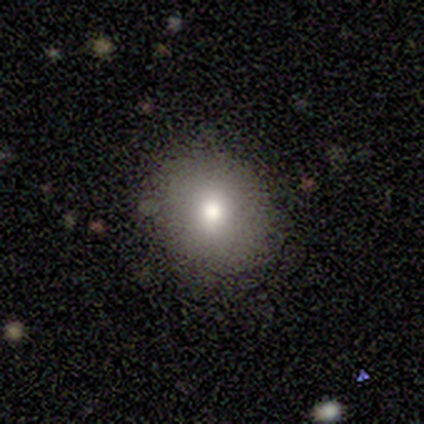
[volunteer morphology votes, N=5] smooth-or-featured: smooth: 100% | featured or disk: 0% | star or artifact: 0%
  how-rounded: round: 100% | in between: 0% | cigar-shaped: 0%
  merging: none: 80% | minor disturbance: 20% | major disturbance: 0% | merger: 0%